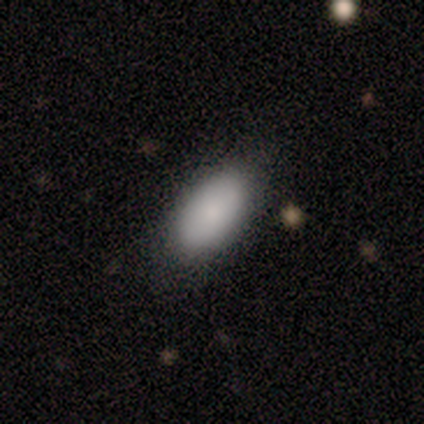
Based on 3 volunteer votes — smooth_or_featured: smooth (p=1.00)
how_rounded: in between (p=1.00)
merging: none (p=1.00)